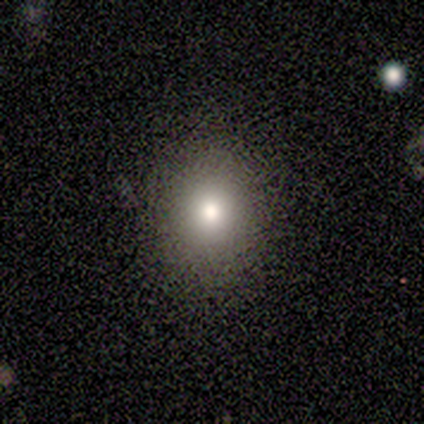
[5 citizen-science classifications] Smooth or featured? 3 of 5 (60%) said star or artifact.